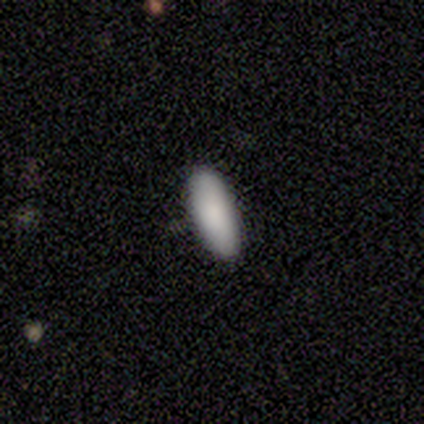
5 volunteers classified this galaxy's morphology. Q: Smooth or featured?
A: smooth (80%); runner-up: featured or disk (20%)
Q: How rounded?
A: in between (100%)
Q: Merging?
A: none (100%)